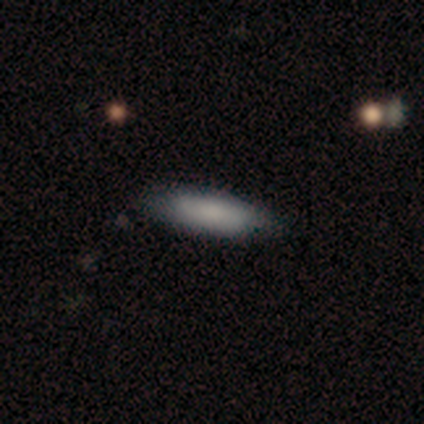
smooth 100%, featured or disk 0%, star or artifact 0%. Down the decision tree: how rounded — in between (80%); merging — none (80%).